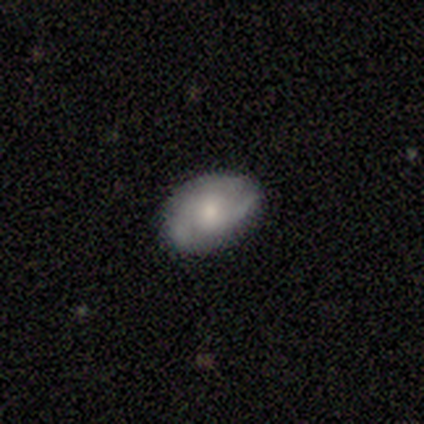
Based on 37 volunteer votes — smooth 49%, featured or disk 43%, star or artifact 8%. Down the decision tree: how rounded — in between (72%); merging — none (74%).